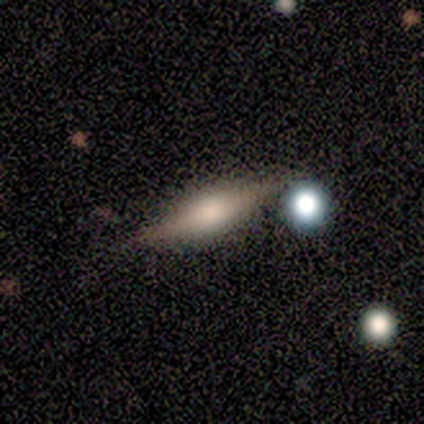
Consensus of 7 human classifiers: Smooth or featured: featured or disk — 71% (smooth — 29%)
Edge-on disk: yes — 100%
Edge-on bulge: rounded — 100%
Merging: none — 100%